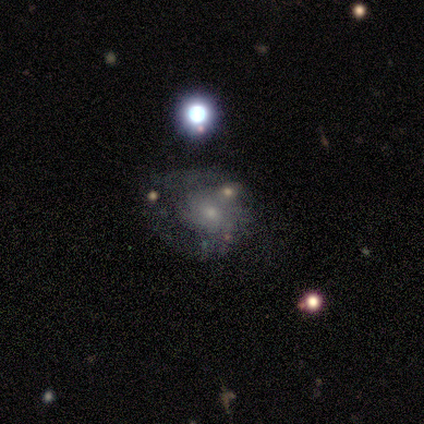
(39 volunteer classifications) This is likely a featured or disk galaxy (77%). It is clearly not viewed edge-on (97%). Bar: clearly no (93%). Spiral arm pattern: possibly yes (55%). Spiral arm count: possibly can't tell (56%). Spiral winding: marginally medium (44%). Central bulge: possibly small (59%). Merging: possibly none (51%).